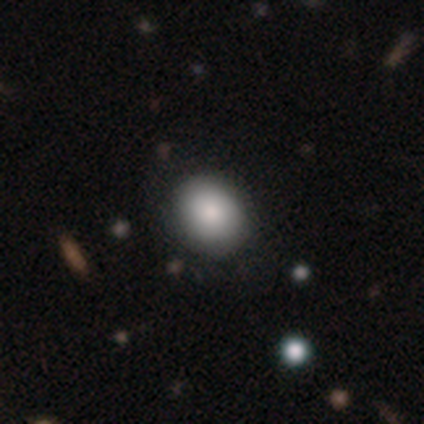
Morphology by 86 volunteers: Overall: smooth (79%). How rounded: round (53%; in between 47%). Merging: none (85%).